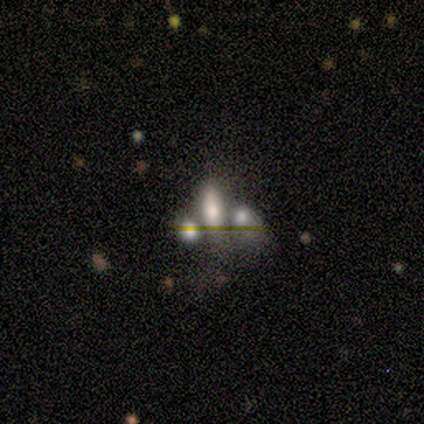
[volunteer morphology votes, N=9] type=smooth (56%); roundness=in between (100%); merging=none (43%).